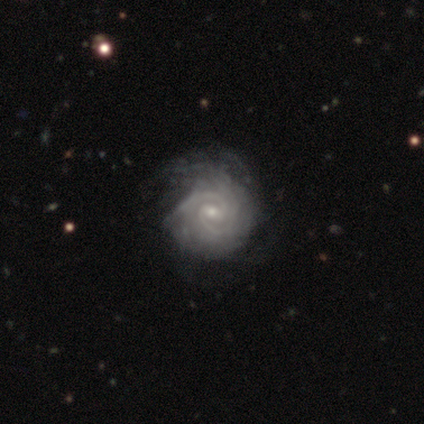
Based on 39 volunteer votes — A featured or disk galaxy (95%) with a weak bar (73%), 2 (72%) tight (78%) spiral arms (97%) and a small central bulge (65%).

Vote fractions:
- Smooth or featured? featured or disk: 95% / star or artifact: 5% / smooth: 0%
- Edge-on disk? no: 100% / yes: 0%
- Bar? weak: 73% / strong: 14% / no: 14%
- Spiral arms? yes: 97% / no: 3%
- Spiral winding? tight: 78% / medium: 22% / loose: 0%
- Spiral arm count? 2: 72% / can't tell: 14% / 3: 8% / more than 4: 6% / 1: 0% / 4: 0%
- Bulge size? small: 65% / moderate: 32% / none: 3% / dominant: 0% / large: 0%
- Merging? none: 32% / major disturbance: 22% / minor disturbance: 19% / merger: 0%